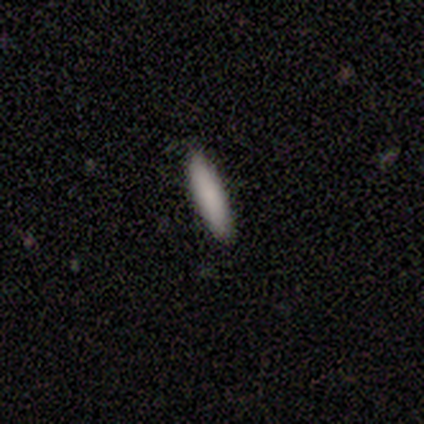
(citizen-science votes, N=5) Smooth or featured? 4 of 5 (80%) said smooth. How rounded? 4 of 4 (100%) said cigar-shaped. Merging? 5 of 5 (100%) said none.